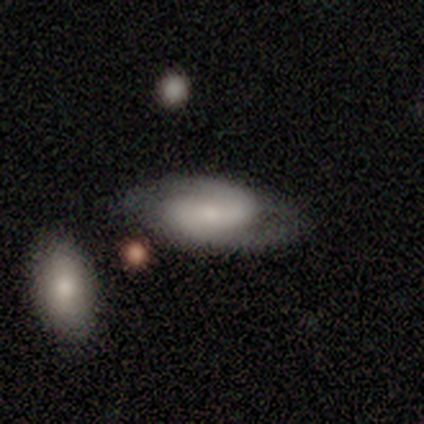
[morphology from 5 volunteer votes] Volunteers were most divided on "spiral winding" (3-way tie): tight: 33%, medium: 33%, loose: 33%. More confident: edge-on disk — no (100%); spiral arms — yes (100%); spiral arm count — 2 (100%); bulge size — small (100%); merging — none (100%); bar — no (67%); smooth or featured — featured or disk (60%).